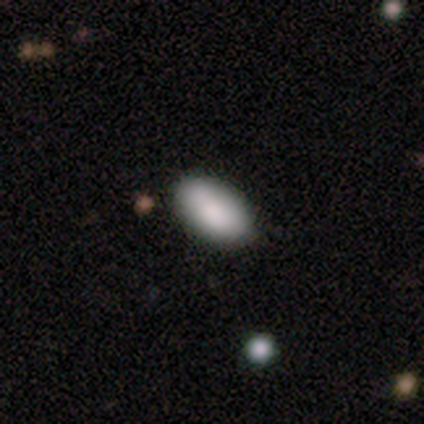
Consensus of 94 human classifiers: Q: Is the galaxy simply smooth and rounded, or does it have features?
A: smooth — 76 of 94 (81%).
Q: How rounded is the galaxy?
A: in between — 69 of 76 (91%).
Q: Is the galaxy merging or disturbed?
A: none — 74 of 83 (89%).